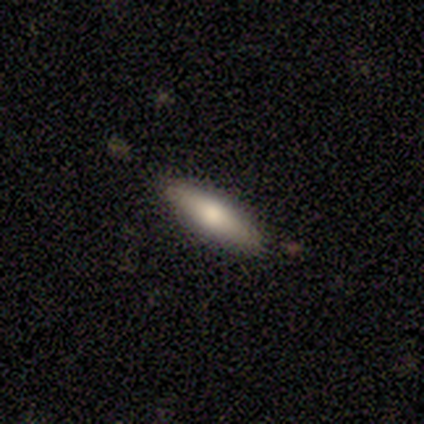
Morphology: type=smooth (75%); roundness=cigar-shaped (67%); merging=none (75%).